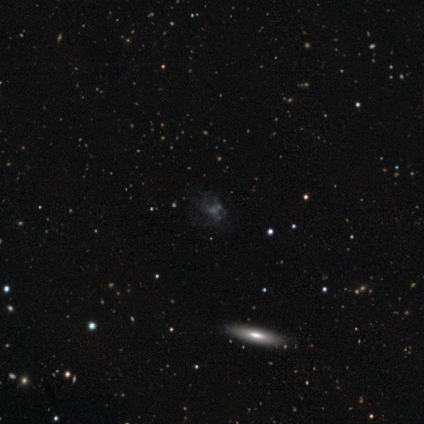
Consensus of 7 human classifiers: Smooth or featured? star or artifact (43%)